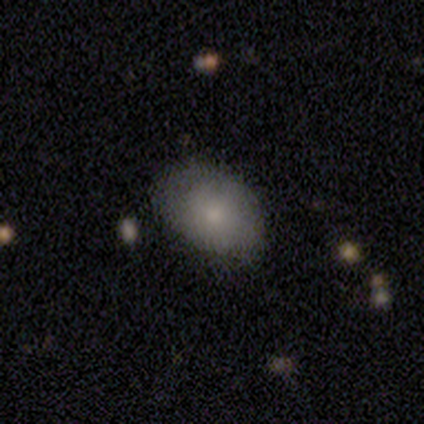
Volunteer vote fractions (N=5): smooth 40% (tied), star or artifact 40% (tied), featured or disk 20%. Down the decision tree: how rounded — round (50%, tied with in between); merging — none (100%).